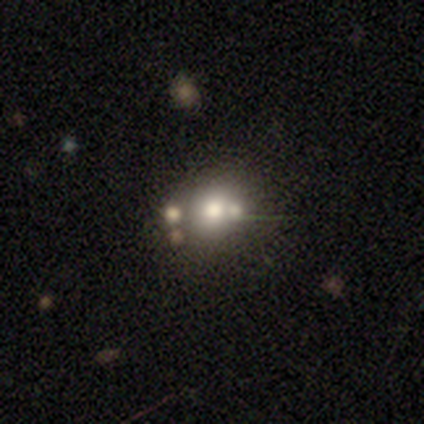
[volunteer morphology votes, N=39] This is possibly a smooth galaxy (54%). How rounded: likely round (71%). Merging: possibly none (48%).